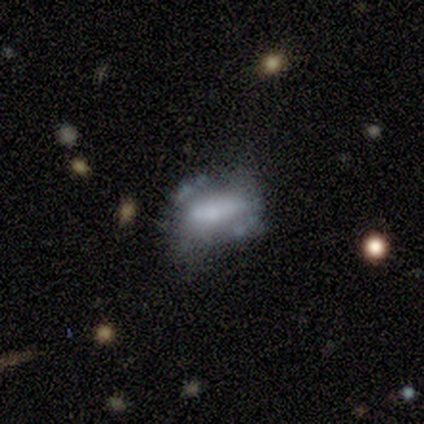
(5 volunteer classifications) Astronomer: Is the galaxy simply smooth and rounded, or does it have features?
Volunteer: smooth — 40%, tied with featured or disk at 40%.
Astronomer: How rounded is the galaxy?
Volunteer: in between — 50%, tied with cigar-shaped at 50%.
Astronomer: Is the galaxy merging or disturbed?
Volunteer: minor disturbance — 75%.